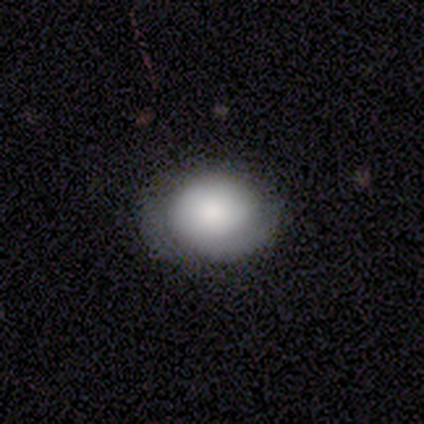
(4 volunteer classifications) smooth 75%, star or artifact 25%, featured or disk 0%. Down the decision tree: how rounded — round (67%); merging — none (67%).